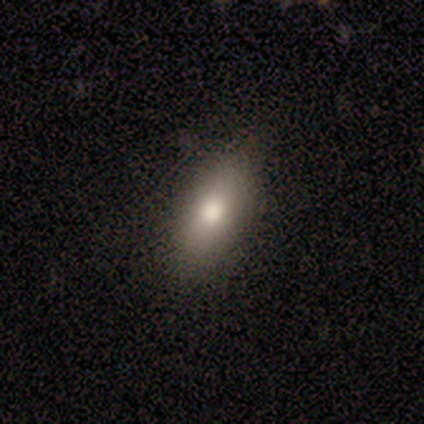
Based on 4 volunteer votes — A smooth galaxy with no disk features (75%) that is in between round and cigar-shaped (100%).

Vote fractions:
- Smooth or featured? smooth: 75% / star or artifact: 25% / featured or disk: 0%
- How rounded? in between: 100% / round: 0% / cigar-shaped: 0%
- Merging? none: 67% / minor disturbance: 33% / major disturbance: 0% / merger: 0%